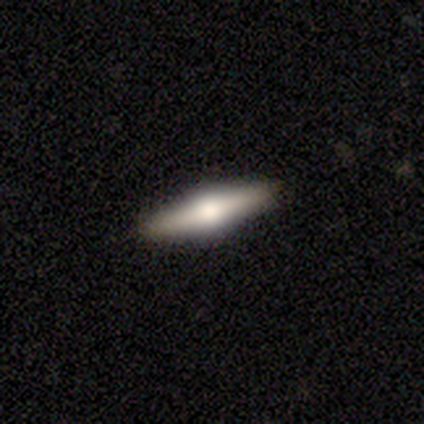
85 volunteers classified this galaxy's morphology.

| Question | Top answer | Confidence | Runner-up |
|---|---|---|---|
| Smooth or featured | featured or disk | 59% | smooth (36%) |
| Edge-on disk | yes | 98% | no (2%) |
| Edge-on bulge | rounded | 96% | boxy (4%) |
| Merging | none | 90% | minor disturbance (9%) |